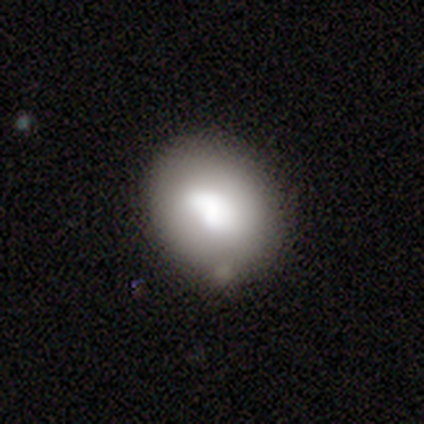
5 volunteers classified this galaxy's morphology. featured or disk 60%, smooth 40%, star or artifact 0%. Down the decision tree: edge-on disk — no (100%); bar — no (67%); spiral arms — no (100%); bulge size — large (100%); merging — none (80%).